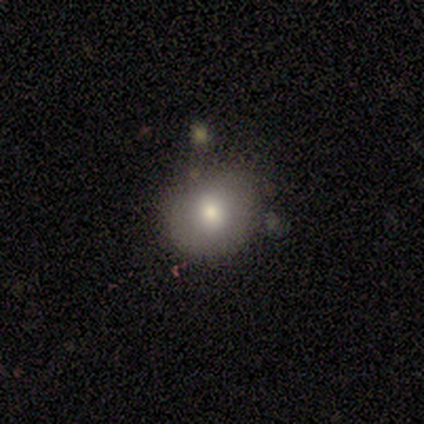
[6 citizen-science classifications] smooth 100%, featured or disk 0%, star or artifact 0%. Down the decision tree: how rounded — round (50%, tied with in between); merging — none (67%).